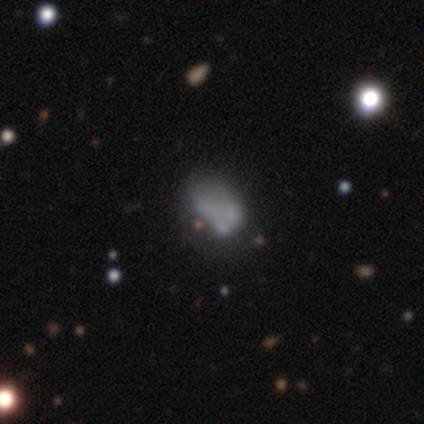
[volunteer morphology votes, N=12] A featured or disk galaxy (50%) with no bar (83%), no spiral arms (100%) and no central bulge (83%). Merging: major disturbance (44%).